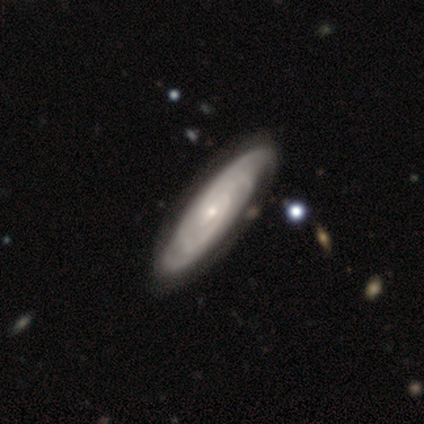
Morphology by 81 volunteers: This is clearly a featured or disk galaxy (81%). It is clearly not viewed edge-on (80%). Bar: possibly no (49%). Spiral arm pattern: clearly yes (96%). Spiral arm count: marginally can't tell (31%). Spiral winding: likely tight (65%). Central bulge: clearly small (91%). Merging: clearly none (90%).